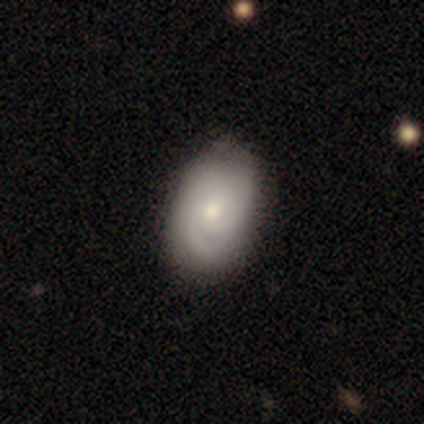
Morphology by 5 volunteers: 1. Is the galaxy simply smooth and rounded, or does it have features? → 60% smooth, 20% featured or disk, 20% star or artifact.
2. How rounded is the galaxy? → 67% in between, 33% round, 0% cigar-shaped.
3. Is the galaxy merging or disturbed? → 50% none (tied), 50% minor disturbance (tied), 0% major disturbance, 0% merger.